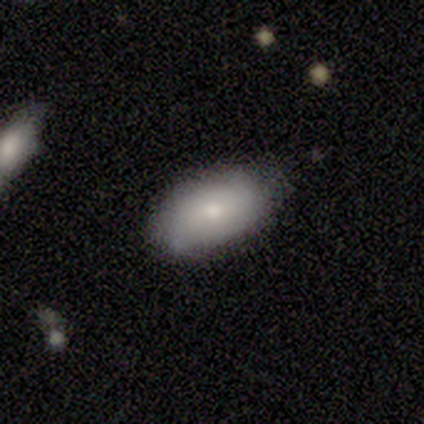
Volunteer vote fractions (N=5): smooth_or_featured: smooth (p=0.40) [tied with: featured or disk p=0.40]
how_rounded: in between (p=1.00)
merging: none (p=1.00)